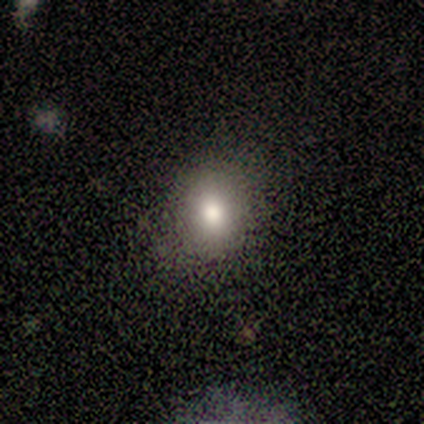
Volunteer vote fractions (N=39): Q: Smooth or featured?
A: smooth (72%); runner-up: star or artifact (18%)
Q: How rounded?
A: round (68%); runner-up: in between (32%)
Q: Merging?
A: none (81%); runner-up: minor disturbance (12%)